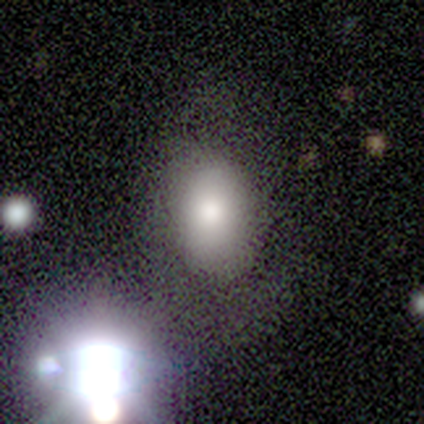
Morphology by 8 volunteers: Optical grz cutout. It shows a smooth galaxy with no disk features (62%) that is in between round and cigar-shaped (100%). Merging: none (83%).